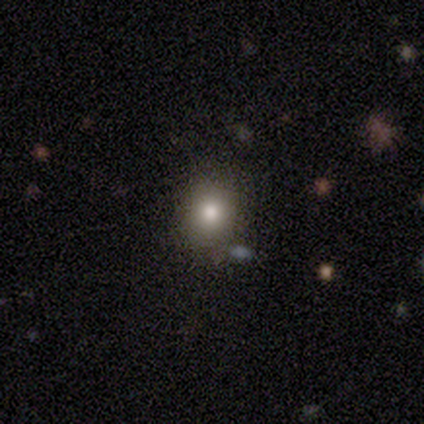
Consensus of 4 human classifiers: Smooth or featured? smooth (100%)
How rounded? round (75%)
Merging? none (75%)